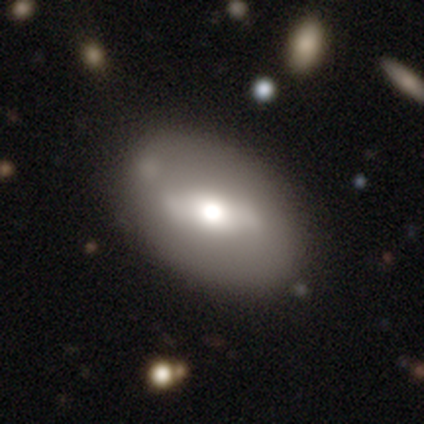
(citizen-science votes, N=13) Smooth or featured? smooth (46%, tied with featured or disk)
How rounded? in between (100%)
Merging? none (58%)